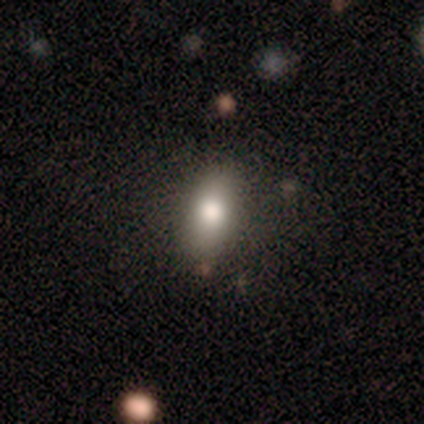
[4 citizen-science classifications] smooth-or-featured: smooth: 50% | featured or disk: 25% | star or artifact: 25%
  how-rounded: in between: 50% (tied) | cigar-shaped: 50% (tied) | round: 0%
  merging: none: 67% | minor disturbance: 33% | major disturbance: 0% | merger: 0%